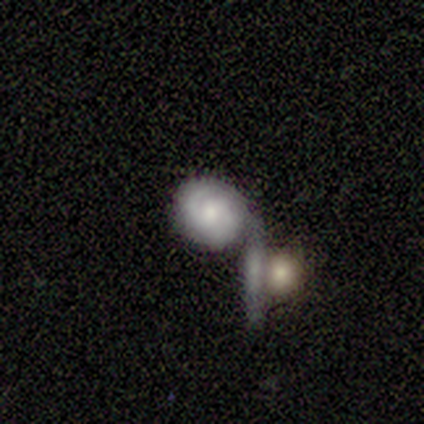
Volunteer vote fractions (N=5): Q: Smooth or featured?
A: featured or disk (60%); runner-up: smooth (20%)
Q: Edge-on disk?
A: no (100%)
Q: Bar?
A: no (67%); runner-up: weak (33%)
Q: Spiral arms?
A: yes (67%); runner-up: no (33%)
Q: Spiral winding?
A: medium (100%)
Q: Spiral arm count?
A: 2 (50%); tied with: can't tell (50%)
Q: Bulge size?
A: small (67%); runner-up: moderate (33%)
Q: Merging?
A: none (50%); runner-up: major disturbance (25%)